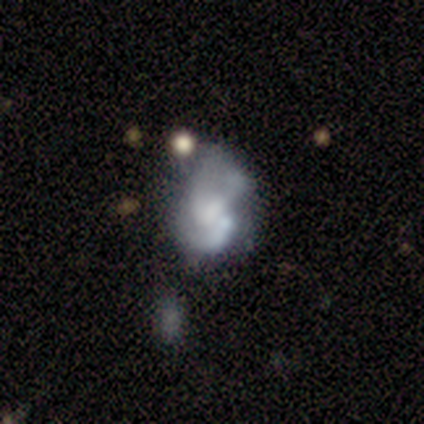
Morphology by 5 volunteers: Smooth or featured? featured or disk (60%)
Edge-on disk? no (100%)
Bar? no (100%)
Spiral arms? no (67%)
Bulge size? none (67%)
Merging? none (40%)